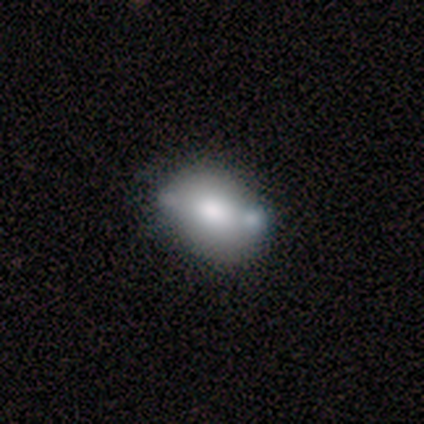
Q: Smooth or featured?
A: featured or disk (60%); runner-up: smooth (40%)
Q: Edge-on disk?
A: no (100%)
Q: Bar?
A: no (67%); runner-up: strong (33%)
Q: Spiral arms?
A: no (100%)
Q: Bulge size?
A: moderate (67%); runner-up: large (33%)
Q: Merging?
A: none (80%); runner-up: merger (20%)